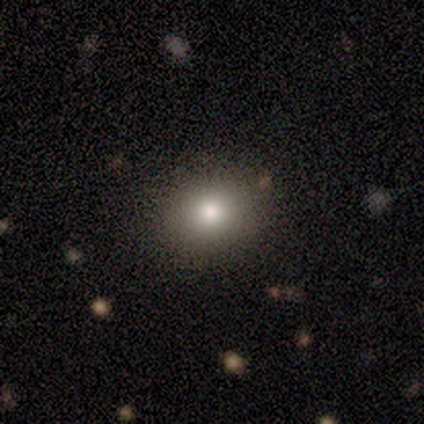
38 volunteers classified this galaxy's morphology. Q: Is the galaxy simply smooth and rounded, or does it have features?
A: smooth — 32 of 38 (84%).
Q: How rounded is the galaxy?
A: round — 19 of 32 (59%).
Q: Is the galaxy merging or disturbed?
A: none — 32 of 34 (94%).